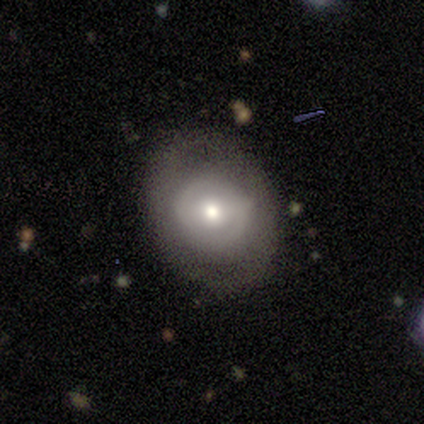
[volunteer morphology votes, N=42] Volunteers were most divided on "spiral arms": no: 57%, yes: 43%. Remaining: edge-on disk — no (100%); merging — none (82%); bulge size — moderate (78%); smooth or featured — featured or disk (55%); bar — no (48%).